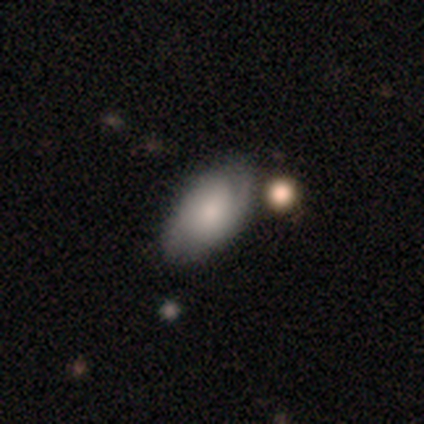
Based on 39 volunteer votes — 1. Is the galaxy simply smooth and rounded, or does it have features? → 54% featured or disk, 46% smooth, 0% star or artifact.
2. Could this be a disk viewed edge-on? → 90% no, 10% yes.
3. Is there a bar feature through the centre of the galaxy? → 47% no, 32% weak, 21% strong.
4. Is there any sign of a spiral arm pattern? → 84% yes, 16% no.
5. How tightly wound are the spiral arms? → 50% tight, 44% medium, 6% loose.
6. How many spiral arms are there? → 81% 2, 12% can't tell, 6% 1, 0% 3, 0% 4, 0% more than 4.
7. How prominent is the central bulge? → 42% small, 21% moderate, 16% large, 11% dominant, 11% none.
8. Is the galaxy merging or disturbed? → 72% none, 23% minor disturbance, 5% merger, 0% major disturbance.